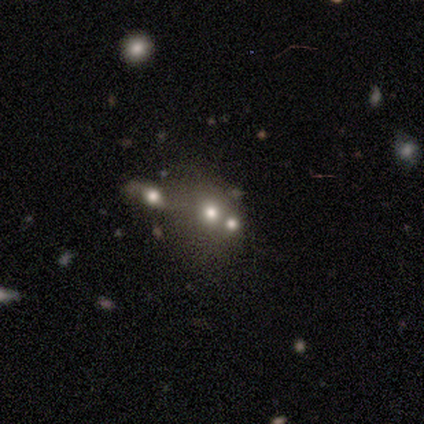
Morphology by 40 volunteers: Volunteers were most divided on "smooth or featured": star or artifact: 40%, featured or disk: 35%, smooth: 25%.